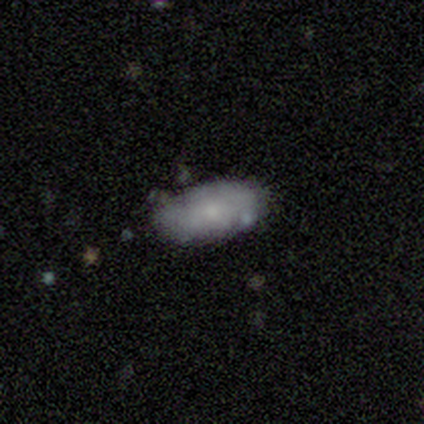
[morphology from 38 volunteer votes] Overall: smooth (76%). How rounded: in between (90%). Merging: none (59%; minor disturbance 35%).